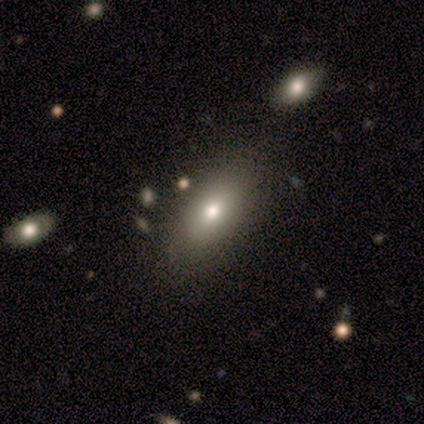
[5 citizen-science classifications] Overall: smooth (80%). How rounded: in between (100%). Merging: none (80%).